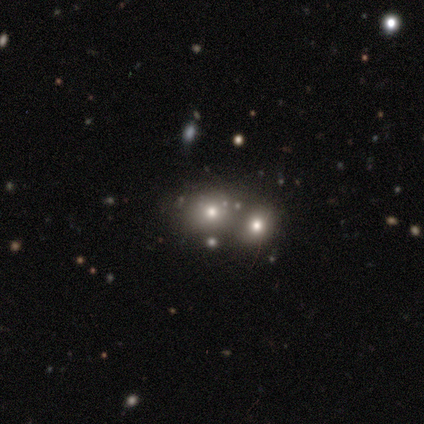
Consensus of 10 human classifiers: A smooth galaxy with no disk features (90%) that is round (89%). Merging: merger (56%).